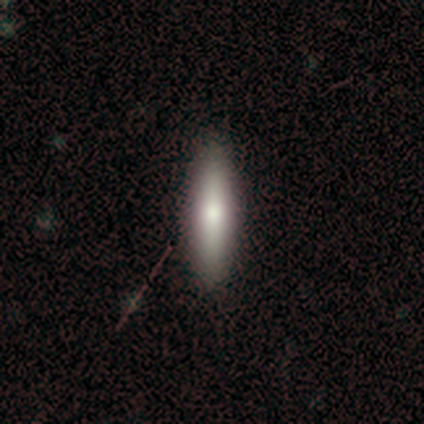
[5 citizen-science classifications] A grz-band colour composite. It shows a smooth galaxy with no disk features (60%) that is cigar-shaped (100%). Merging: none (100%).